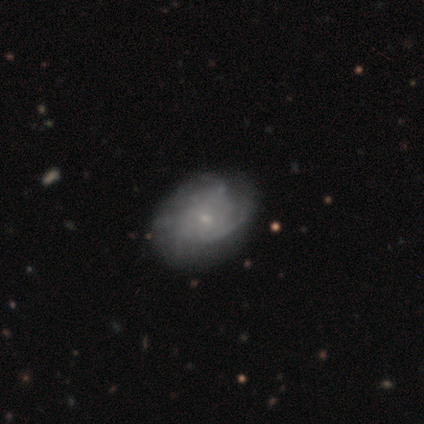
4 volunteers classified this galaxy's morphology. A featured or disk galaxy (50%) with a weak bar (50%, tied with no), tight (50%, tied with medium) spiral arms (100%) and a moderate central bulge (50%, tied with small).

Vote fractions:
- Smooth or featured? featured or disk: 50% / smooth: 25% / star or artifact: 25%
- Edge-on disk? no: 100% / yes: 0%
- Bar? weak: 50% (tied) / no: 50% (tied) / strong: 0%
- Spiral arms? yes: 100% / no: 0%
- Spiral winding? tight: 50% (tied) / medium: 50% (tied) / loose: 0%
- Spiral arm count? can't tell: 100% / 1: 0% / 2: 0% / 3: 0% / 4: 0% / more than 4: 0%
- Bulge size? moderate: 50% (tied) / small: 50% (tied) / dominant: 0% / large: 0% / none: 0%
- Merging? none: 67% / minor disturbance: 33% / major disturbance: 0% / merger: 0%